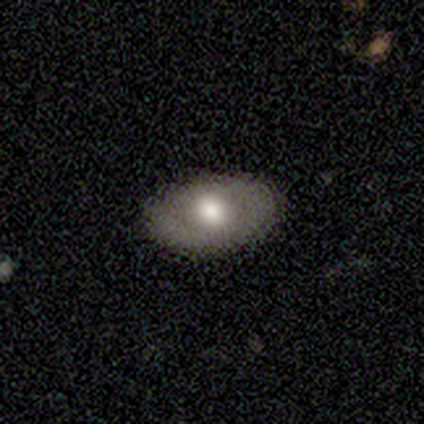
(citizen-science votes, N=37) A smooth galaxy with no disk features (57%) that is in between round and cigar-shaped (90%).

Vote fractions:
- Smooth or featured? smooth: 57% / featured or disk: 38% / star or artifact: 5%
- How rounded? in between: 90% / round: 5% / cigar-shaped: 5%
- Merging? none: 91% / minor disturbance: 6% / major disturbance: 3% / merger: 0%